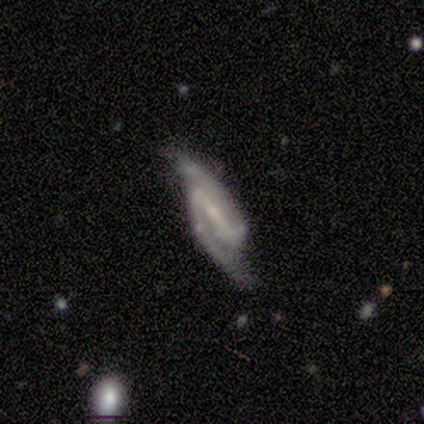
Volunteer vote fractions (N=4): A featured or disk galaxy (100%) with a strong bar (100%), 2 (75%) tight (50%, tied with medium) spiral arms (100%) and a small central bulge (75%). Merging: none (100%).